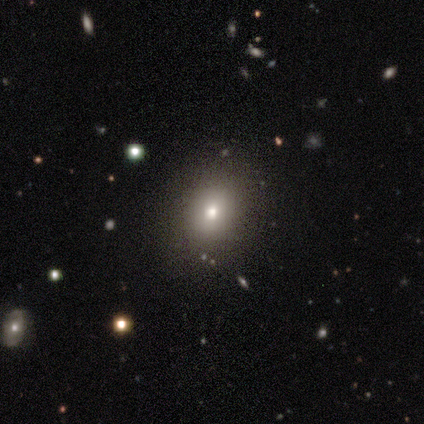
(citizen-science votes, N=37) Smooth or featured: smooth — 62% (star or artifact — 27%)
How rounded: round — 57% (in between — 43%)
Merging: none — 89% (minor disturbance — 11%)